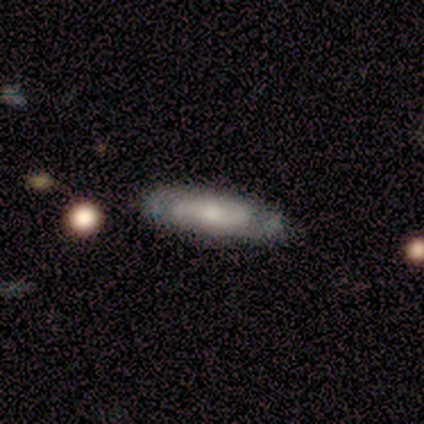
A featured or disk galaxy (50%) with no bar (53%), 2 (82%) tight (36%, tied with loose) spiral arms (73%) and a moderate central bulge (47%). Merging: none (83%).